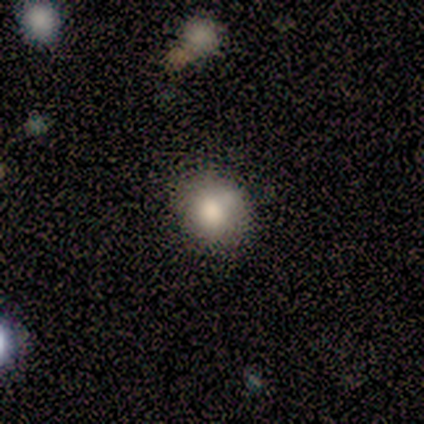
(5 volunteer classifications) This is clearly a smooth galaxy (100%). How rounded: clearly round (100%). Merging: marginally none (40%).